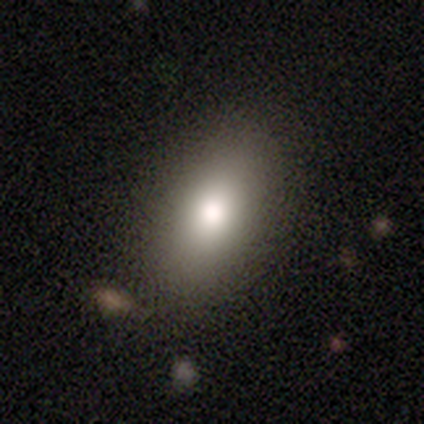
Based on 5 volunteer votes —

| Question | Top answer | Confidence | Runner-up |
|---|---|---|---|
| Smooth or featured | smooth | 80% | star or artifact (20%) |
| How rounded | in between | 75% | cigar-shaped (25%) |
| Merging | none | 100% | — |